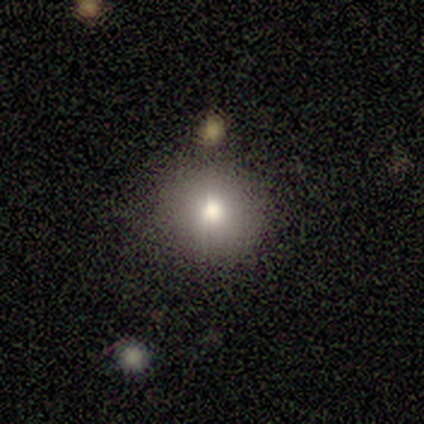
Smooth or featured?
  - smooth: 100% *
  - featured or disk: 0%
  - star or artifact: 0%
How rounded?
  - round: 100% *
  - in between: 0%
  - cigar-shaped: 0%
Merging?
  - none: 80% *
  - major disturbance: 20%
  - minor disturbance: 0%
  - merger: 0%